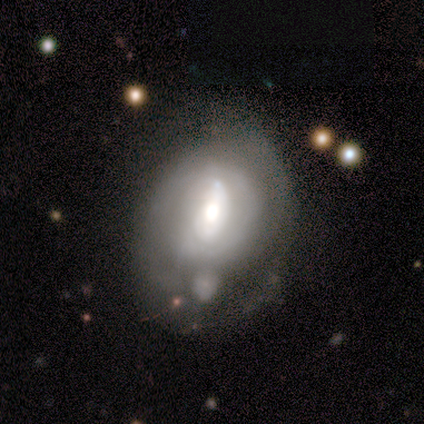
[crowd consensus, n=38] Smooth or featured: featured or disk — 66% (smooth — 29%)
Edge-on disk: no — 100%
Bar: no — 48% (weak — 28%)
Spiral arms: yes — 60% (no — 40%)
Spiral winding: tight — 47% (medium — 33%)
Spiral arm count: can't tell — 60% (2 — 20%)
Bulge size: moderate — 72% (large — 20%)
Merging: none — 31% (tied with minor disturbance — 31%; major disturbance — 31%)